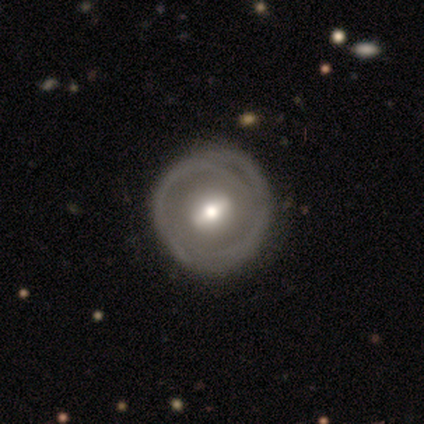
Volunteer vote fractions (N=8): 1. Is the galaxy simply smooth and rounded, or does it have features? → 50% featured or disk, 38% smooth, 12% star or artifact.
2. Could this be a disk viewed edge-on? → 100% no, 0% yes.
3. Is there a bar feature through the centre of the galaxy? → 75% weak, 25% strong, 0% no.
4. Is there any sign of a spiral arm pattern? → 100% yes, 0% no.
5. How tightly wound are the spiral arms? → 50% tight, 25% medium, 25% loose.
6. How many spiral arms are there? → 50% 1, 25% 3, 25% can't tell, 0% 2, 0% 4, 0% more than 4.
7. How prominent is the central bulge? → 75% moderate, 25% large, 0% dominant, 0% small, 0% none.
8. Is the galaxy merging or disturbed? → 43% none, 29% major disturbance, 14% minor disturbance, 14% merger.